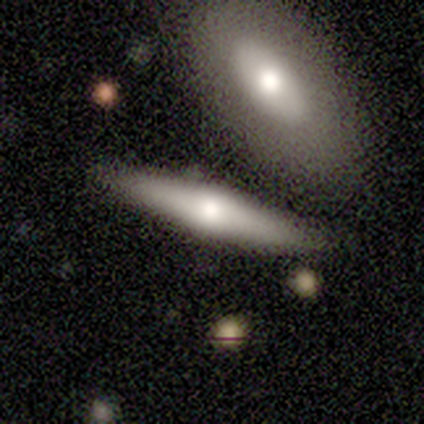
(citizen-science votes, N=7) Smooth or featured? smooth (71%)
How rounded? cigar-shaped (60%)
Merging? none (86%)